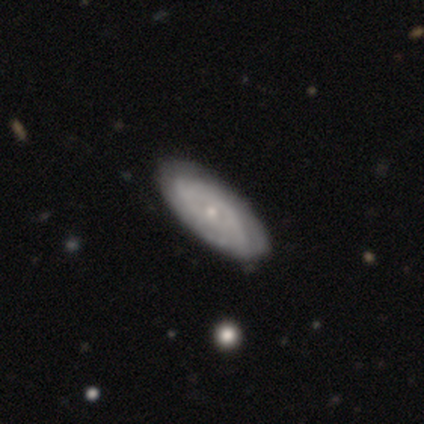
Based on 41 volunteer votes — This is clearly a featured or disk galaxy (85%). It is clearly not viewed edge-on (83%). Bar: clearly no (93%). Spiral arm pattern: likely yes (79%). Spiral arm count: likely can't tell (78%). Spiral winding: likely tight (78%). Central bulge: likely small (66%). Merging: likely none (71%).